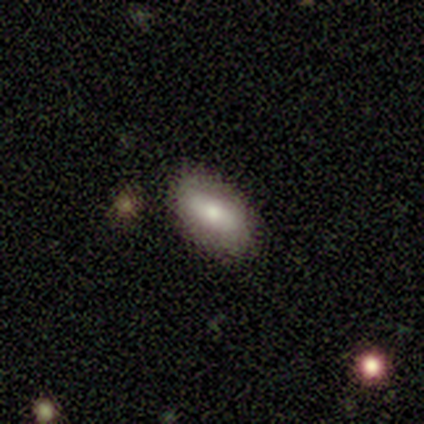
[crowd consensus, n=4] smooth 50%, featured or disk 25%, star or artifact 25%. Down the decision tree: how rounded — in between (50%, tied with cigar-shaped); merging — none (100%).